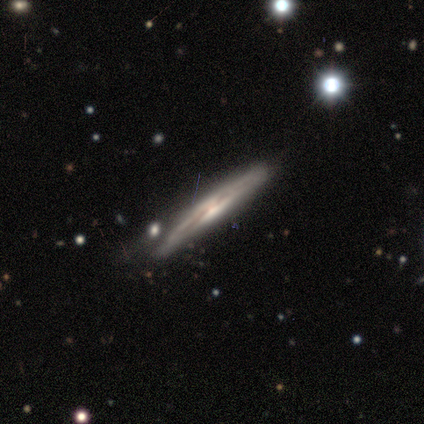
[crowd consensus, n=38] Smooth or featured? 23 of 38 (61%) said featured or disk. Edge-on disk? 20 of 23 (87%) said yes. Edge-on bulge? 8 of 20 (40%) said none. Merging? 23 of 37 (62%) said none.